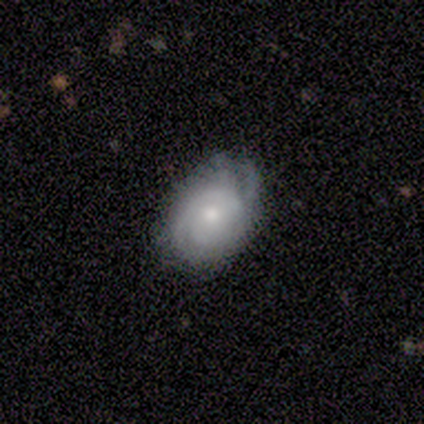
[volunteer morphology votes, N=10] smooth_or_featured: featured or disk (p=0.60) [alt: smooth p=0.30]
disk_edge_on: no (p=1.00)
bar: no (p=1.00)
has_spiral_arms: yes (p=0.83) [alt: no p=0.17]
spiral_winding: tight (p=0.80) [alt: medium p=0.20]
spiral_arm_count: 2 (p=0.80) [alt: can't tell p=0.20]
bulge_size: moderate (p=0.67) [alt: small p=0.33]
merging: none (p=0.67) [alt: minor disturbance p=0.33]